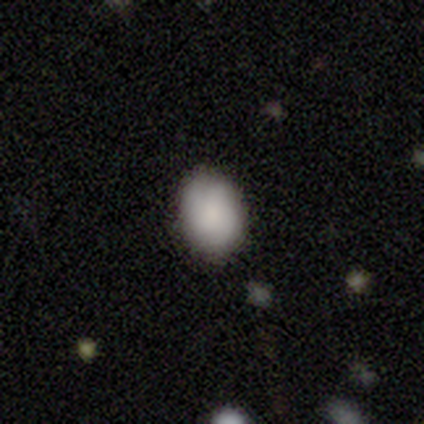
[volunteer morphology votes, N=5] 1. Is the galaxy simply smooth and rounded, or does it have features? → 100% smooth, 0% featured or disk, 0% star or artifact.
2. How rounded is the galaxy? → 80% in between, 20% round, 0% cigar-shaped.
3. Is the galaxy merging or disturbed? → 80% none, 20% major disturbance, 0% minor disturbance, 0% merger.